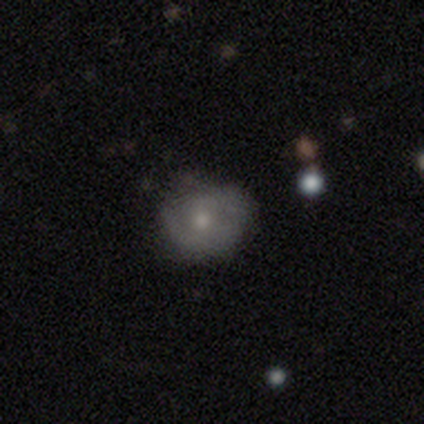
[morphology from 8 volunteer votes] This appears to be a featured or disk galaxy (75%) with no bar (67%), 2 (50%, tied with can't tell) tight (75%) spiral arms (67%) and a moderate central bulge (67%). Merging: minor disturbance (50%).